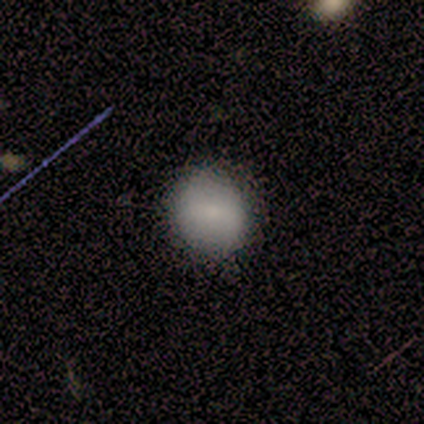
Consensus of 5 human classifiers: This appears to be a smooth galaxy with no disk features (100%) that is round (80%). Merging: none (80%).